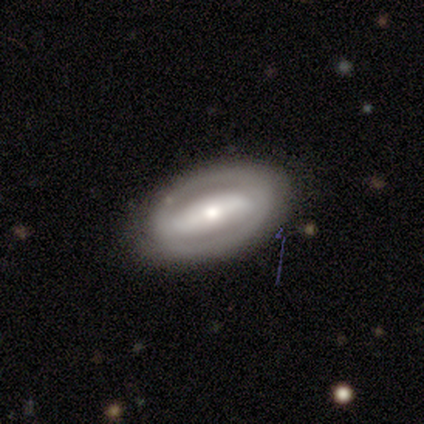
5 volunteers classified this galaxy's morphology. featured or disk 60%, smooth 40%, star or artifact 0%. Down the decision tree: edge-on disk — no (100%); bar — strong (67%); spiral arms — no (67%); bulge size — moderate (67%); merging — none (100%).